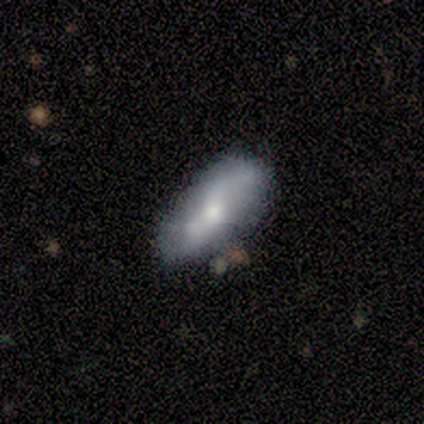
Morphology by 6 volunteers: This is likely a featured or disk galaxy (67%). It is clearly not viewed edge-on (100%). Bar: possibly no (50%). Spiral arm pattern: clearly yes (100%). Spiral arm count: likely 2 (75%). Spiral winding: clearly loose (100%). Central bulge: likely small (75%). Merging: clearly none (100%).